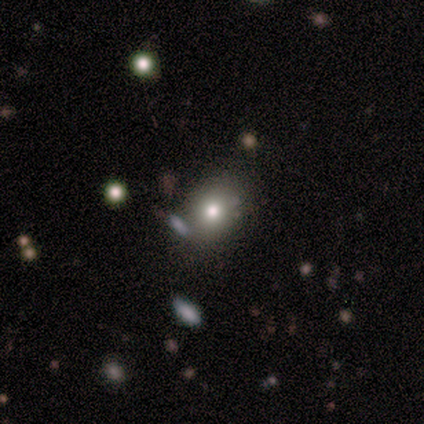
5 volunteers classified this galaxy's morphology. This appears to be a smooth galaxy with no disk features (100%) that is round (60%). Merging: none (60%).